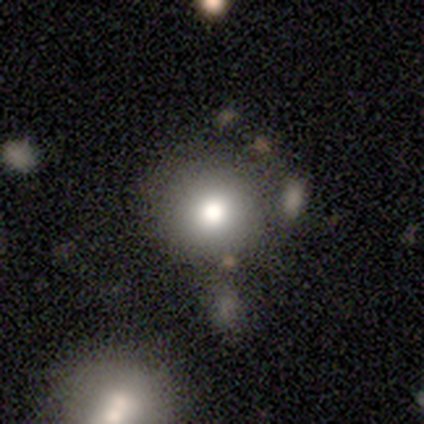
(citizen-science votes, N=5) Q: Smooth or featured?
A: smooth (60%); runner-up: featured or disk (20%)
Q: How rounded?
A: round (67%); runner-up: in between (33%)
Q: Merging?
A: none (50%); runner-up: minor disturbance (25%)